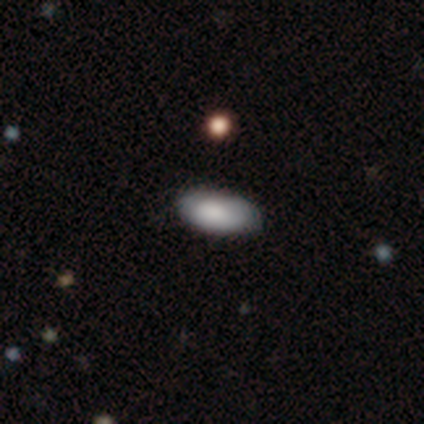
Morphology: type=smooth (88%); roundness=in between (100%); merging=none (56%).